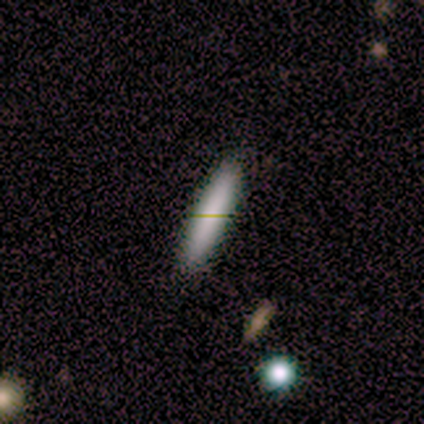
smooth 80%, star or artifact 20%, featured or disk 0%. Down the decision tree: how rounded — cigar-shaped (75%); merging — none (75%).